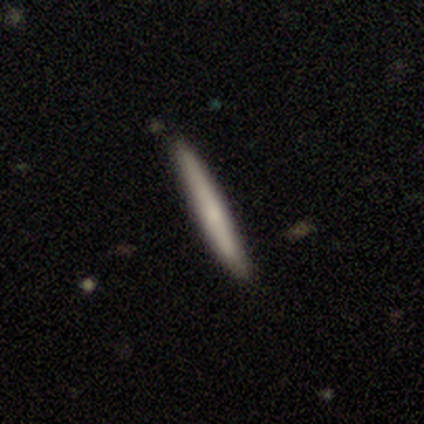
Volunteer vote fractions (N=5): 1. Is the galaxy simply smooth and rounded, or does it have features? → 80% smooth, 20% featured or disk, 0% star or artifact.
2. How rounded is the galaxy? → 100% cigar-shaped, 0% round, 0% in between.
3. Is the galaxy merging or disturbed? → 80% none, 20% minor disturbance, 0% major disturbance, 0% merger.